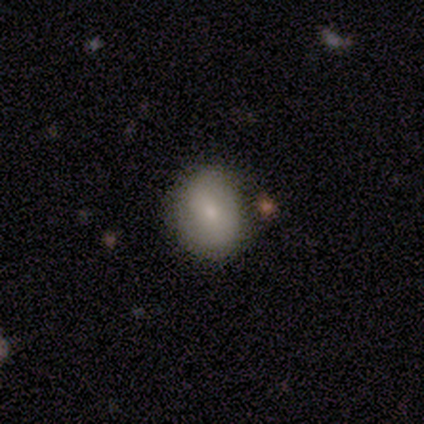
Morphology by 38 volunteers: Smooth or featured? 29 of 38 (76%) said smooth. How rounded? 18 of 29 (62%) said round. Merging? 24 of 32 (75%) said none.